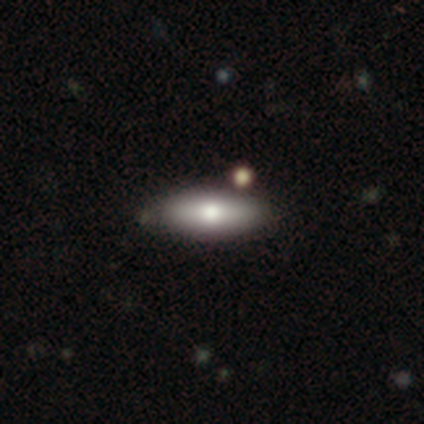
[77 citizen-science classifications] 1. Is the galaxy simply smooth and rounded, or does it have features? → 77% smooth, 19% featured or disk, 4% star or artifact.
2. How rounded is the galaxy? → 56% in between, 42% cigar-shaped, 2% round.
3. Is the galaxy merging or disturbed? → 45% none, 7% merger, 3% minor disturbance, 0% major disturbance.